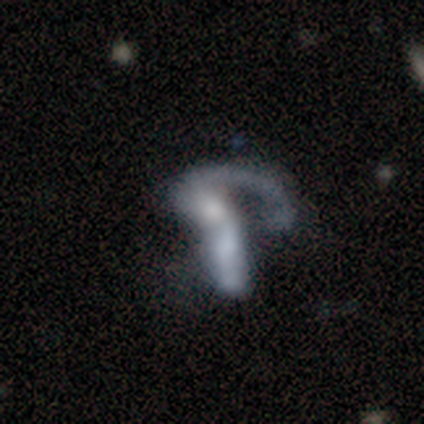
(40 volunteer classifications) Overall: featured or disk (72%). Edge-on disk: no (100%). Bar: no (72%). Spiral arms: yes (52%; no 48%). Spiral arm count: 1 (67%; 2 27%). Spiral winding: loose (73%). Bulge size: moderate (38%; none 28%). Merging: merger (47%; major disturbance 33%).